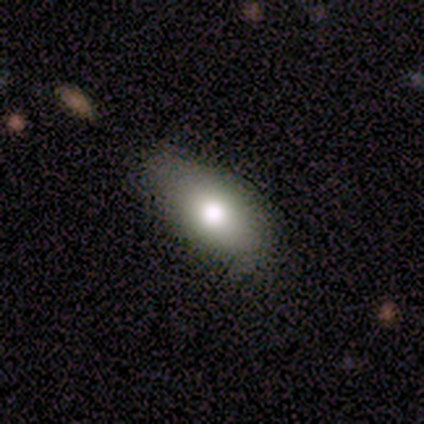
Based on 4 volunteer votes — Smooth or featured: smooth — 75% (star or artifact — 25%)
How rounded: in between — 67% (cigar-shaped — 33%)
Merging: none — 100%